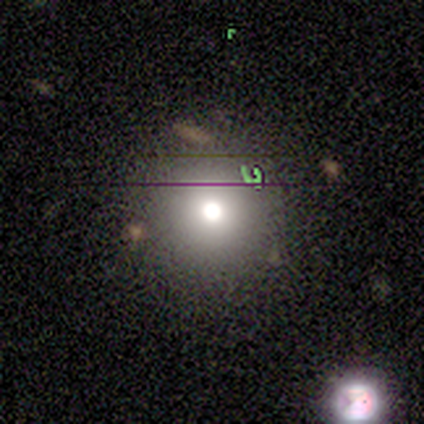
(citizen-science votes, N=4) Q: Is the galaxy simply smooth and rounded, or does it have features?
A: star or artifact — 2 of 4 (50%).